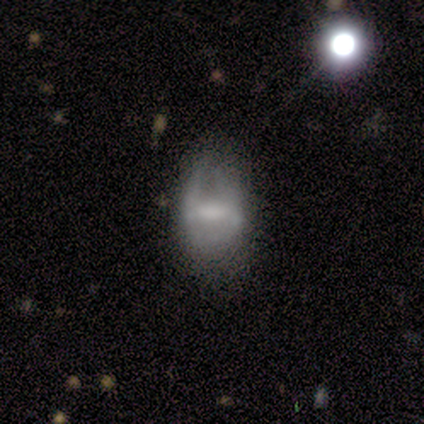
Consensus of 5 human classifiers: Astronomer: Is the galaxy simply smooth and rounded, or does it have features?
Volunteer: featured or disk — 100%.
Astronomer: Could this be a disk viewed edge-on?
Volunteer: no — 100%.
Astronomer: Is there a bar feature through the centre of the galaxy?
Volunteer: weak — 40%, tied with no at 40%.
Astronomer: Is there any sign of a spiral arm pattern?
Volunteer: no — 80%.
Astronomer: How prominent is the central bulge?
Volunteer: moderate — 40%, tied with none at 40%.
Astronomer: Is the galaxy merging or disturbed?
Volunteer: major disturbance — 60%.